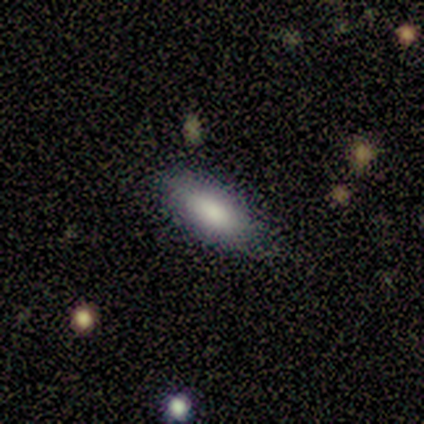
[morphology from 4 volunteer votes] Q: Smooth or featured?
A: smooth (75%); runner-up: featured or disk (25%)
Q: How rounded?
A: in between (100%)
Q: Merging?
A: none (100%)